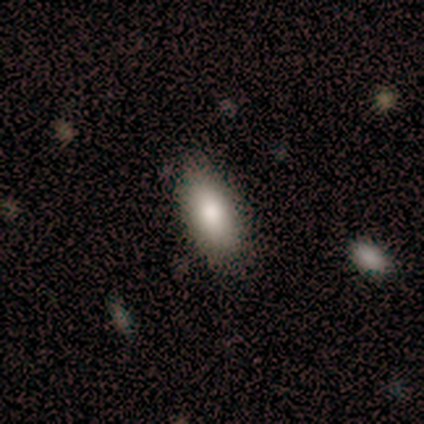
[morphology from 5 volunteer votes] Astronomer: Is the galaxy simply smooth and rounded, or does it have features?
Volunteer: smooth — 100%.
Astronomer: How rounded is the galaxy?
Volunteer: in between — 80%.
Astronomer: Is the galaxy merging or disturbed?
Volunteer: none — 100%.